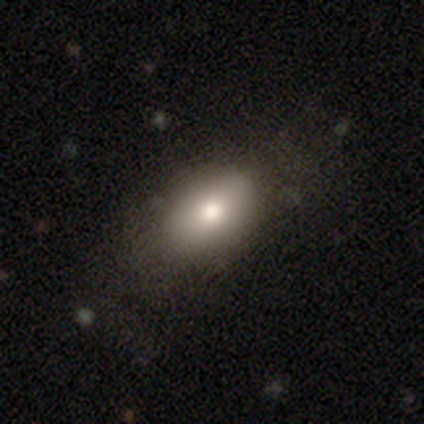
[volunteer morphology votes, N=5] A smooth galaxy with no disk features (80%) that is round (50%, tied with in between).

Vote fractions:
- Smooth or featured? smooth: 80% / featured or disk: 20% / star or artifact: 0%
- How rounded? round: 50% (tied) / in between: 50% (tied) / cigar-shaped: 0%
- Merging? none: 100% / minor disturbance: 0% / major disturbance: 0% / merger: 0%